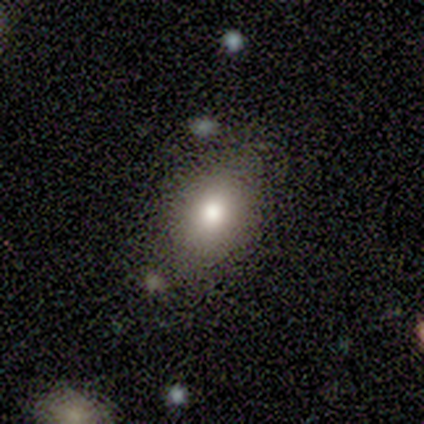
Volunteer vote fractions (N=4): Smooth or featured? smooth (100%)
How rounded? in between (100%)
Merging? none (50%, tied with minor disturbance)